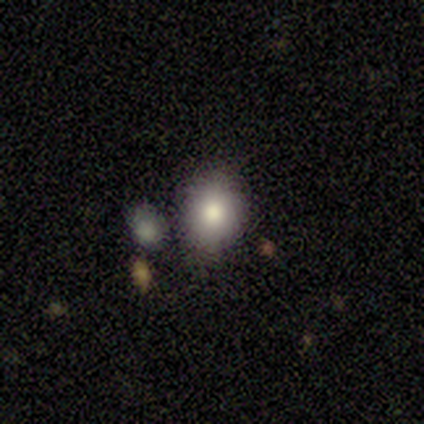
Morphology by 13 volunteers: smooth-or-featured: smooth: 85% | featured or disk: 8% | star or artifact: 8%
  how-rounded: in between: 55% | round: 45% | cigar-shaped: 0%
  merging: none: 67% | minor disturbance: 25% | major disturbance: 8% | merger: 0%